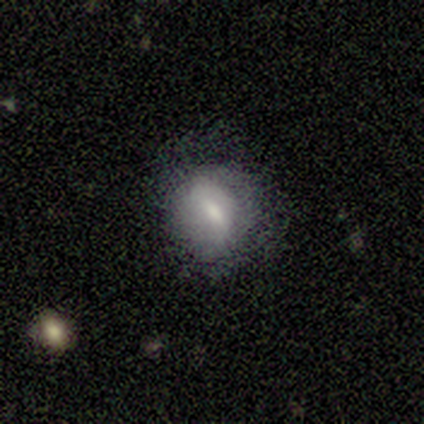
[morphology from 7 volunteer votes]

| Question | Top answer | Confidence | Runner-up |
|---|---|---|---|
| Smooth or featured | smooth | 71% | featured or disk (29%) |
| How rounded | round | 80% | in between (20%) |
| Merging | minor disturbance | 57% | none (43%) |